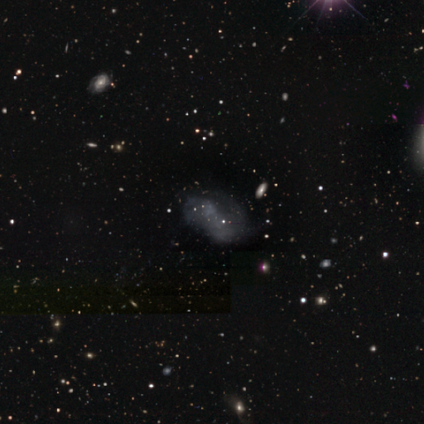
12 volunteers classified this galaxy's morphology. featured or disk 50%, smooth 33%, star or artifact 17%. Down the decision tree: edge-on disk — no (83%); bar — no (80%); spiral arms — yes (60%); spiral arm count — 2 (67%); spiral winding — loose (67%); bulge size — none (100%); merging — none (40%).